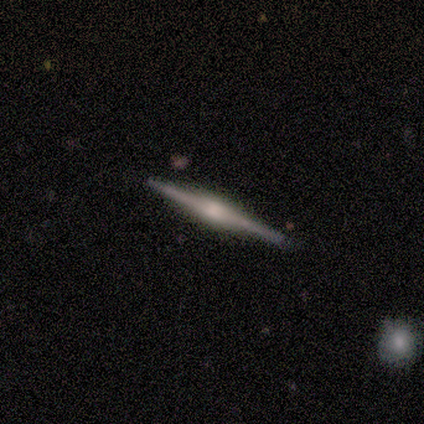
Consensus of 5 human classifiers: This appears to be a featured or disk galaxy (100%) viewed edge-on (100%) with a rounded central bulge (100%). Merging: none (100%).